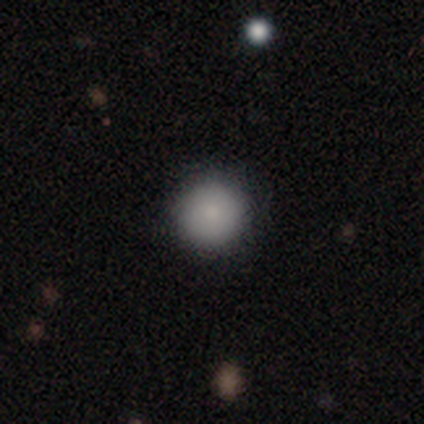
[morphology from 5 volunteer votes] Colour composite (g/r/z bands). It shows a smooth galaxy with no disk features (100%) that is round (100%). Merging: none (100%).